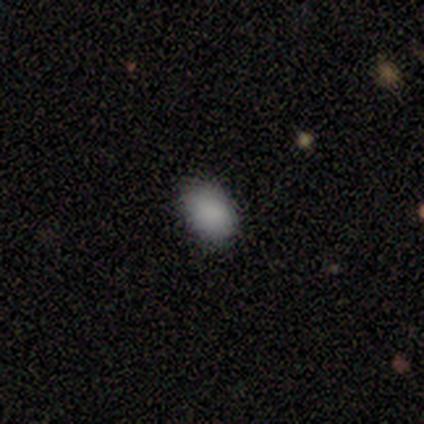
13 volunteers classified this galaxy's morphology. smooth_or_featured: smooth (p=0.92) [alt: star or artifact p=0.08]
how_rounded: in between (p=0.67) [alt: round p=0.33]
merging: none (p=0.92) [alt: minor disturbance p=0.08]